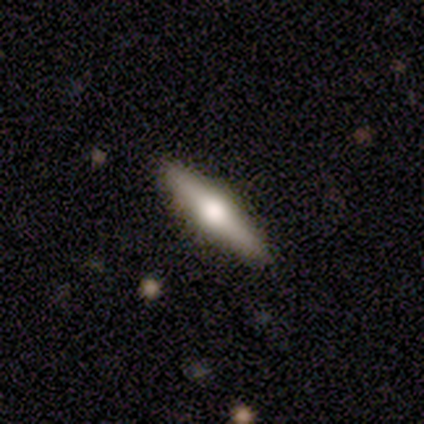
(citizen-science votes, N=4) This appears to be a smooth galaxy with no disk features (75%) that is cigar-shaped (67%). Merging: none (75%).